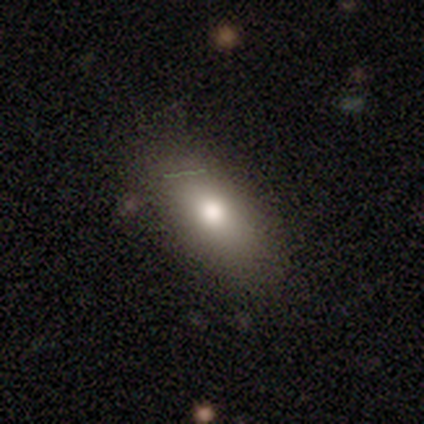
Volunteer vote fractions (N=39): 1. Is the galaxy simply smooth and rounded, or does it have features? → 67% smooth, 21% featured or disk, 13% star or artifact.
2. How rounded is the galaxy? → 81% in between, 15% round, 4% cigar-shaped.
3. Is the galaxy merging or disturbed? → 79% none, 21% minor disturbance, 0% major disturbance, 0% merger.